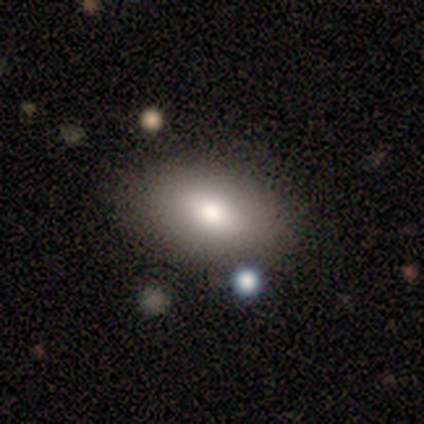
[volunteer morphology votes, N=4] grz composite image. It shows a smooth galaxy with no disk features (75%) that is in between round and cigar-shaped (100%). Merging: none (75%).